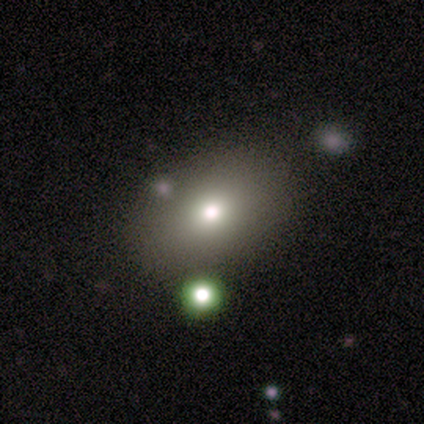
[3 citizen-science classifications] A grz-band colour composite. It shows a smooth galaxy with no disk features (67%) that is round (50%, tied with in between). Merging: none (100%).